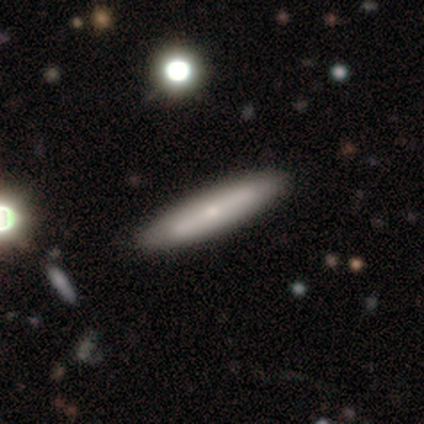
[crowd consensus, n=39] Q: Smooth or featured?
A: smooth (51%); runner-up: featured or disk (46%)
Q: How rounded?
A: cigar-shaped (90%); runner-up: in between (10%)
Q: Merging?
A: none (63%); runner-up: minor disturbance (5%)